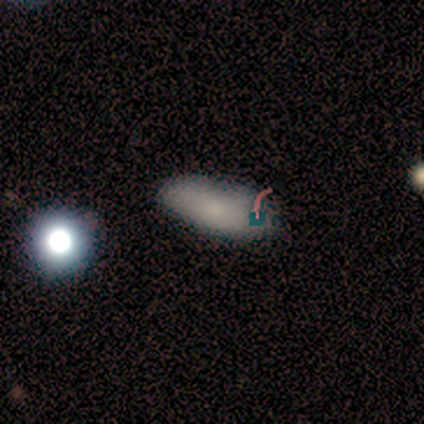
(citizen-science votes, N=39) This is likely a smooth galaxy (74%). How rounded: clearly in between (97%). Merging: likely none (69%).